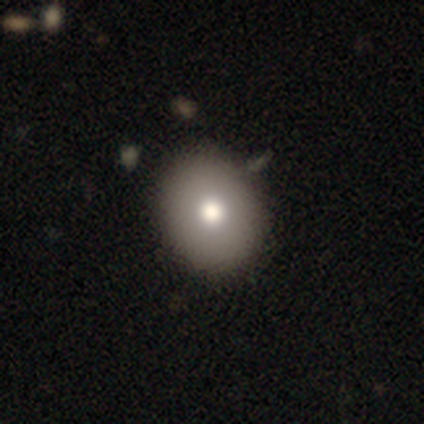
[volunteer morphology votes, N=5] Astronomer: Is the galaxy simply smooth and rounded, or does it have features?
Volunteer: smooth — 60%.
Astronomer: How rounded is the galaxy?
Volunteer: round — 100%.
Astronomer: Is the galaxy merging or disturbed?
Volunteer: none — 75%.